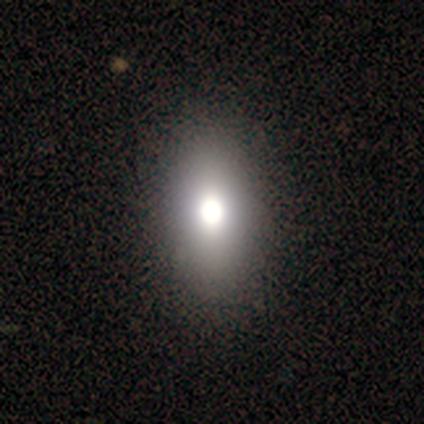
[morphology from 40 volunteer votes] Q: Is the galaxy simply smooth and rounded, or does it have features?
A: smooth — 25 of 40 (62%).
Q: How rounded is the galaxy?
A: in between — 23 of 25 (92%).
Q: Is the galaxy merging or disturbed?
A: none — 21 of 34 (62%).